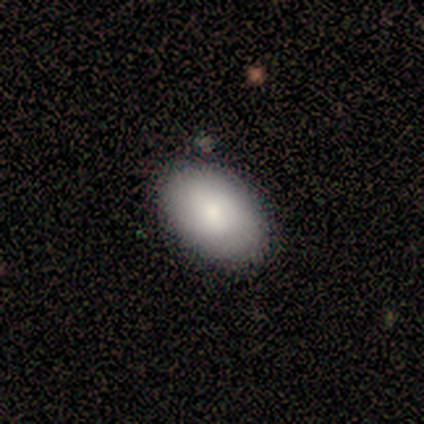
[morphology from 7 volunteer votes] Overall: smooth (86%). How rounded: in between (83%). Merging: none (86%).